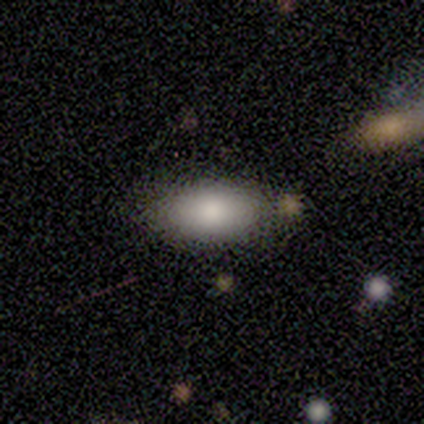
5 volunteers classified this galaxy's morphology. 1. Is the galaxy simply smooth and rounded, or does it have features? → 100% smooth, 0% featured or disk, 0% star or artifact.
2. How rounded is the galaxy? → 100% in between, 0% round, 0% cigar-shaped.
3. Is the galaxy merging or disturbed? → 100% none, 0% minor disturbance, 0% major disturbance, 0% merger.